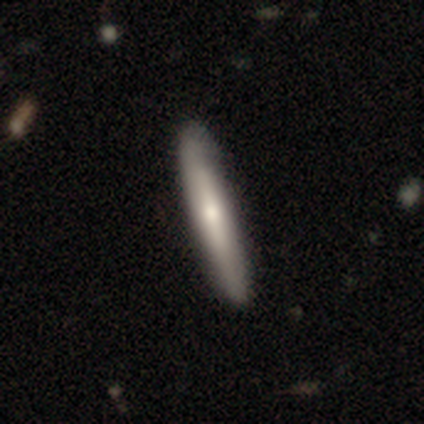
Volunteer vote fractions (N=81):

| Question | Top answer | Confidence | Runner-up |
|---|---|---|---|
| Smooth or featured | smooth | 68% | featured or disk (30%) |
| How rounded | cigar-shaped | 96% | in between (4%) |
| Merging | none | 46% | minor disturbance (5%) |